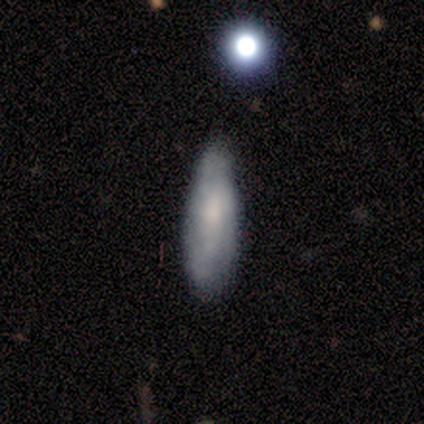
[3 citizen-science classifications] Smooth or featured? featured or disk (67%)
Edge-on disk? no (100%)
Bar? no (100%)
Spiral arms? yes (50%, tied with no)
Spiral winding? medium (100%)
Spiral arm count? can't tell (100%)
Bulge size? moderate (50%, tied with small)
Merging? minor disturbance (67%)